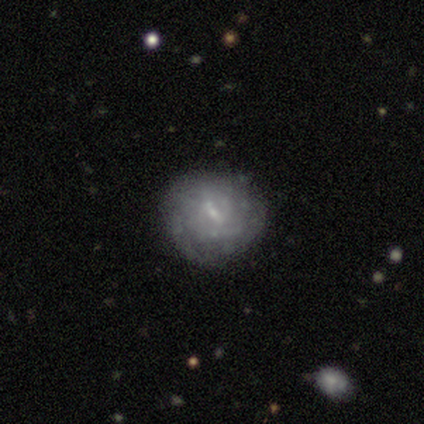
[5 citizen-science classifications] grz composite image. It shows a featured or disk galaxy (60%) with a weak bar (100%), 3 (50%, tied with can't tell) tight (50%, tied with medium) spiral arms (67%) and a small central bulge (100%). Merging: none (60%).